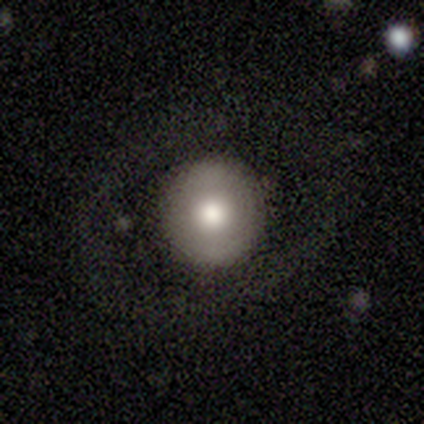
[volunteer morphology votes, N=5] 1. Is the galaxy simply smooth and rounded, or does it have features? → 40% smooth (tied), 40% featured or disk (tied), 20% star or artifact.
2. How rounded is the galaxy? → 100% round, 0% in between, 0% cigar-shaped.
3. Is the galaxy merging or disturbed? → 100% none, 0% minor disturbance, 0% major disturbance, 0% merger.